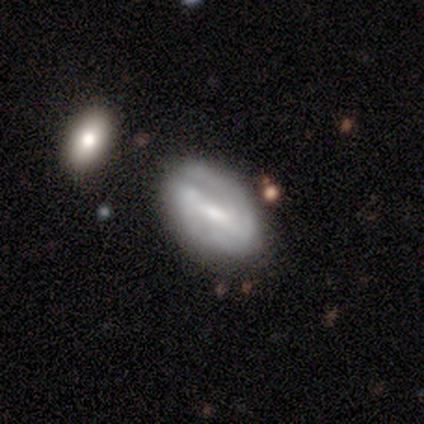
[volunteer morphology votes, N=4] Smooth or featured? 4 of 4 (100%) said featured or disk. Edge-on disk? 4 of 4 (100%) said no. Bar? 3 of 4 (75%) said weak. Spiral arms? 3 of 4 (75%) said yes. Spiral winding? 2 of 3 (67%) said tight. Spiral arm count? 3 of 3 (100%) said 2. Bulge size? 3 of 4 (75%) said moderate. Merging? 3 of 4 (75%) said none.